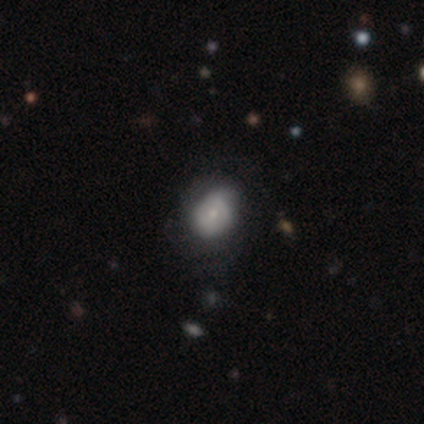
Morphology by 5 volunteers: Q: Smooth or featured?
A: featured or disk (60%); runner-up: smooth (40%)
Q: Edge-on disk?
A: no (100%)
Q: Bar?
A: no (67%); runner-up: weak (33%)
Q: Spiral arms?
A: no (67%); runner-up: yes (33%)
Q: Bulge size?
A: moderate (67%); runner-up: small (33%)
Q: Merging?
A: none (60%); runner-up: minor disturbance (20%)